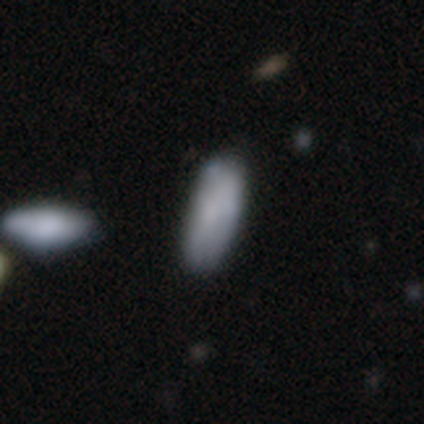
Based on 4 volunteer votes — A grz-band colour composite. It shows a smooth galaxy with no disk features (100%) that is in between round and cigar-shaped (75%). Merging: none (100%).